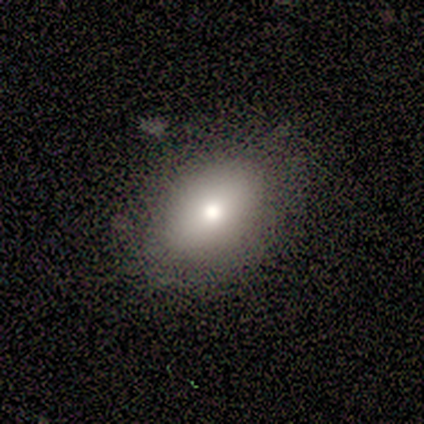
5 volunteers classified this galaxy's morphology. Q: Smooth or featured?
A: smooth (100%)
Q: How rounded?
A: in between (80%); runner-up: round (20%)
Q: Merging?
A: none (60%); runner-up: minor disturbance (40%)